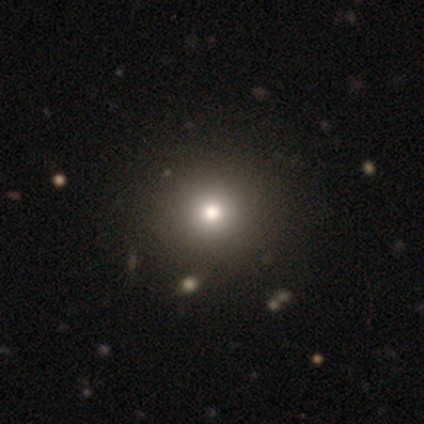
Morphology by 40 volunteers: smooth 75%, star or artifact 20%, featured or disk 5%. Down the decision tree: how rounded — round (87%); merging — none (66%).